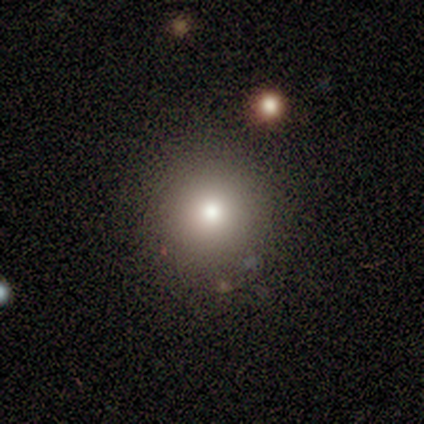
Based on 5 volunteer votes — Smooth or featured? smooth (80%)
How rounded? round (100%)
Merging? none (100%)